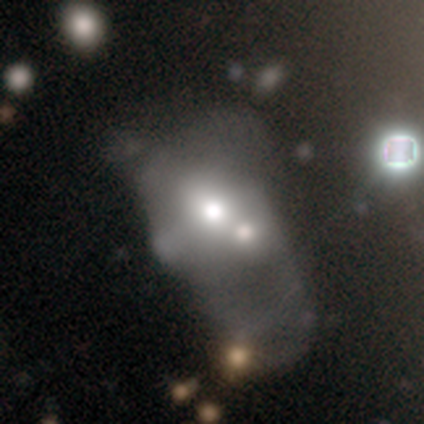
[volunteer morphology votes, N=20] featured or disk 60%, smooth 30%, star or artifact 10%. Down the decision tree: edge-on disk — no (100%); bar — no (92%); spiral arms — no (100%); bulge size — large (42%); merging — major disturbance (50%).